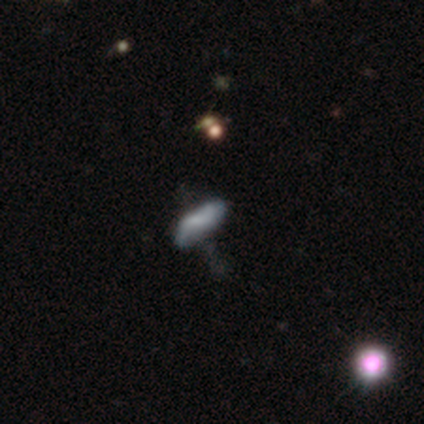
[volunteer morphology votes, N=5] Q: Smooth or featured?
A: smooth (40%); tied with: featured or disk (40%)
Q: How rounded?
A: in between (100%)
Q: Merging?
A: minor disturbance (50%); tied with: major disturbance (50%)